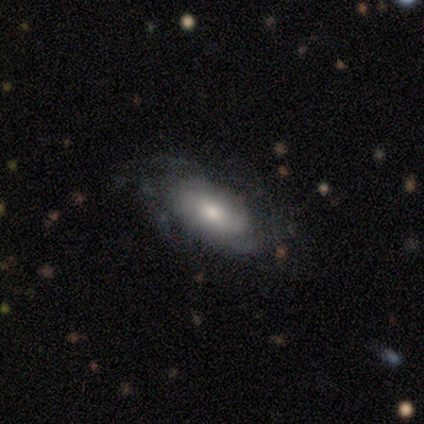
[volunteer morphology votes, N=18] Volunteers were most divided on "spiral winding" (2-way tie): tight: 40%, loose: 40%, medium: 20%; "spiral arm count" (2-way tie): 4: 40%, can't tell: 40%, 2: 20%, 1: 0%, 3: 0%, more than 4: 0%. More confident: edge-on disk — no (100%); bar — no (78%); merging — none (71%); bulge size — moderate (67%); spiral arms — yes (56%); smooth or featured — featured or disk (50%).